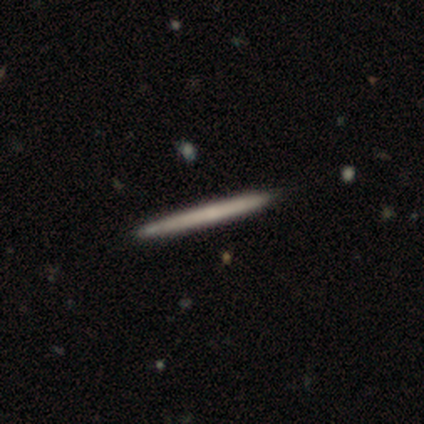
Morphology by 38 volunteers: Q: Smooth or featured?
A: featured or disk (53%); runner-up: smooth (47%)
Q: Edge-on disk?
A: yes (95%); runner-up: no (5%)
Q: Edge-on bulge?
A: none (95%); runner-up: rounded (5%)
Q: Merging?
A: none (63%); runner-up: minor disturbance (8%)